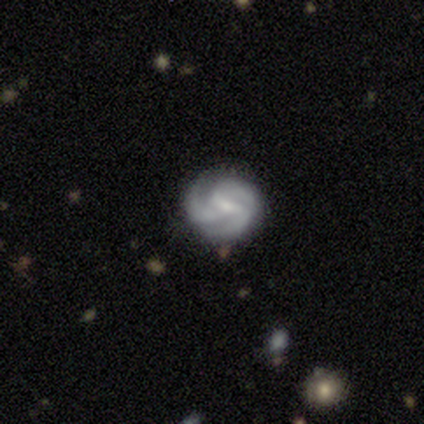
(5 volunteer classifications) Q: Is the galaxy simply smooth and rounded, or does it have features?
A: featured or disk — 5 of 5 (100%).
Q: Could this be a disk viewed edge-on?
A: no — 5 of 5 (100%).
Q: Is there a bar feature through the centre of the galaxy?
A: strong — 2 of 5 (40%, tied with weak).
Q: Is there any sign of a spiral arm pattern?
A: yes — 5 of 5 (100%).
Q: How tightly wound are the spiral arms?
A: medium — 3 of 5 (60%).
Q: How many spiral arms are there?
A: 3 — 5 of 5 (100%).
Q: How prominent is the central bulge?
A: small — 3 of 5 (60%).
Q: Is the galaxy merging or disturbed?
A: none — 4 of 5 (80%).